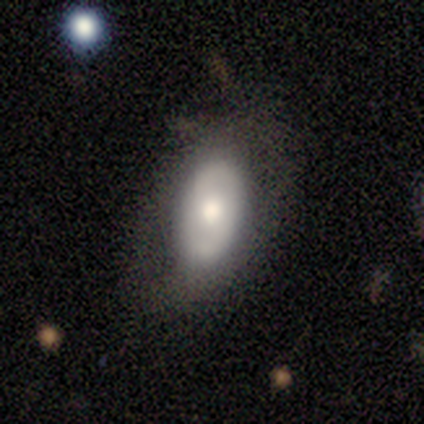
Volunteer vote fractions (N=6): A featured or disk galaxy (67%) with no bar (100%), 2 (100%) tight (67%) spiral arms (100%) and a moderate central bulge (100%). Merging: none (67%).